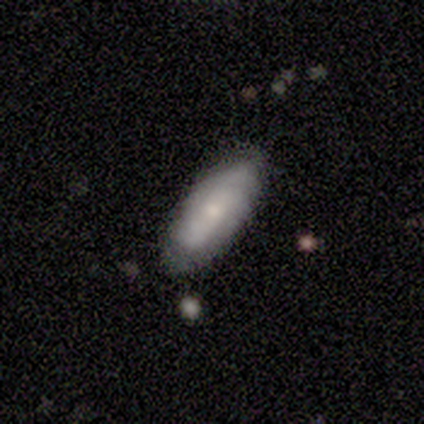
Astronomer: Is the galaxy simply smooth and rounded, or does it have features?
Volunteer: smooth — 60% (runner-up: featured or disk, 40%).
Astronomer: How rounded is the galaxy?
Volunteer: in between — 100%.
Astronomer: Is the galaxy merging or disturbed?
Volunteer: none — 60%.